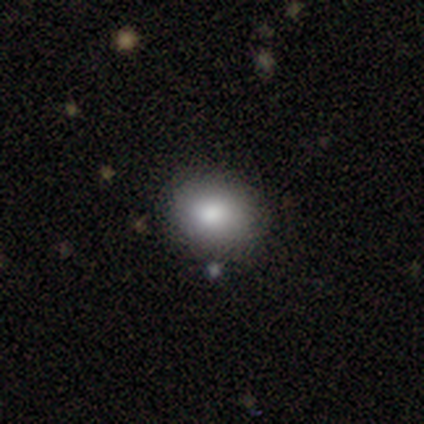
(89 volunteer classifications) This appears to be a smooth galaxy with no disk features (82%) that is in between round and cigar-shaped (55%). Merging: none (80%).